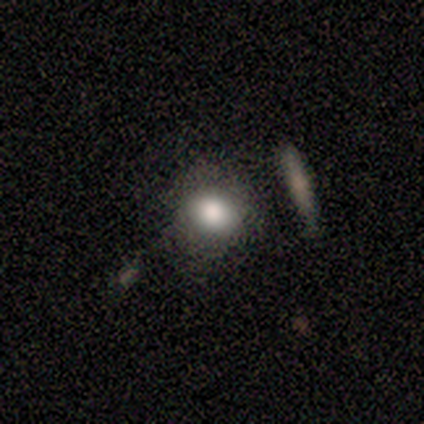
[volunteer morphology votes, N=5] Q: Smooth or featured?
A: smooth (80%); runner-up: star or artifact (20%)
Q: How rounded?
A: round (75%); runner-up: in between (25%)
Q: Merging?
A: none (100%)